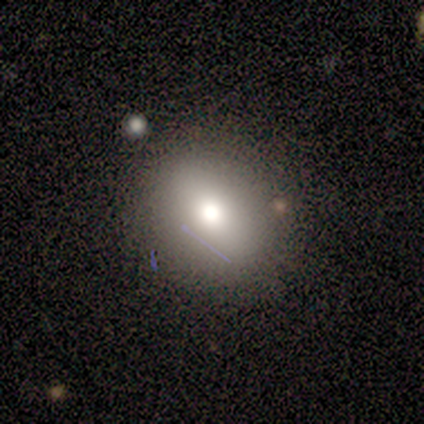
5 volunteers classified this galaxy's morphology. smooth_or_featured: smooth (p=0.40) [tied with: star or artifact p=0.40]
how_rounded: round (p=0.50) [tied with: in between p=0.50]
merging: none (p=0.67) [alt: major disturbance p=0.33]